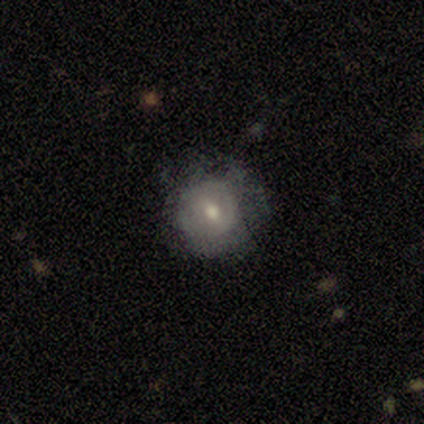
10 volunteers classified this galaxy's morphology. smooth-or-featured: smooth: 50% (tied) | featured or disk: 50% (tied) | star or artifact: 0%
  how-rounded: round: 100% | in between: 0% | cigar-shaped: 0%
  merging: none: 50% | major disturbance: 40% | minor disturbance: 10% | merger: 0%